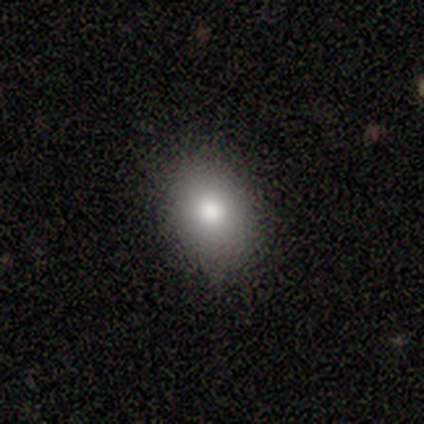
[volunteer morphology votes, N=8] Overall: smooth (100%). How rounded: in between (88%). Merging: none (100%).